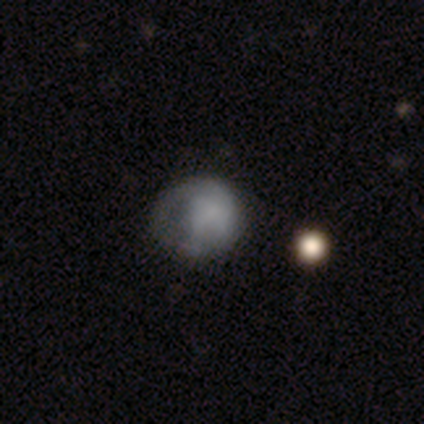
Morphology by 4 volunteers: Smooth or featured?
  - smooth: 50% * (tied)
  - star or artifact: 50% * (tied)
  - featured or disk: 0%
How rounded?
  - round: 100% *
  - in between: 0%
  - cigar-shaped: 0%
Merging?
  - none: 50% * (tied)
  - major disturbance: 50% * (tied)
  - minor disturbance: 0%
  - merger: 0%